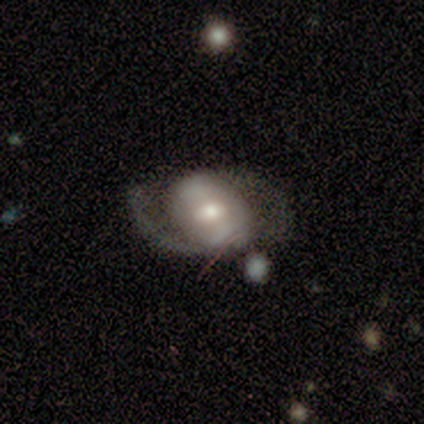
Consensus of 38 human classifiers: smooth-or-featured: featured or disk: 58% | smooth: 39% | star or artifact: 3%
  disk-edge-on: no: 91% | yes: 9%
    bar: weak: 55% | no: 25% | strong: 20%
    has-spiral-arms: yes: 85% | no: 15%
      spiral-winding: medium: 47% | loose: 35% | tight: 18%
      spiral-arm-count: 2: 76% | can't tell: 18% | 1: 6% | 3: 0% | 4: 0% | more than 4: 0%
    bulge-size: moderate: 65% | small: 25% | dominant: 5% | large: 5% | none: 0%
  merging: none: 51% | major disturbance: 30% | minor disturbance: 19% | merger: 0%